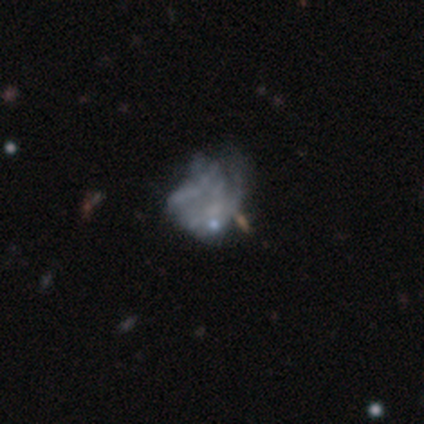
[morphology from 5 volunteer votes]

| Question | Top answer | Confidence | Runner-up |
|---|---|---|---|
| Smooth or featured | featured or disk | 60% | smooth (40%) |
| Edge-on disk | no | 100% | — |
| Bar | no | 100% | — |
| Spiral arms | no | 67% | yes (33%) |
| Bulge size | none | 67% | small (33%) |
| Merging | minor disturbance | 80% | major disturbance (20%) |